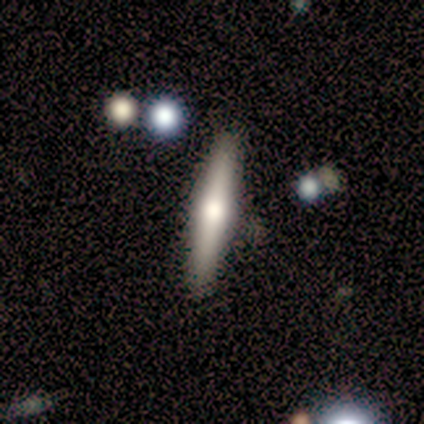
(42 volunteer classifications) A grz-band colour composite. It shows a featured or disk galaxy (71%) viewed edge-on (100%) with a rounded central bulge (97%). Merging: none (93%).